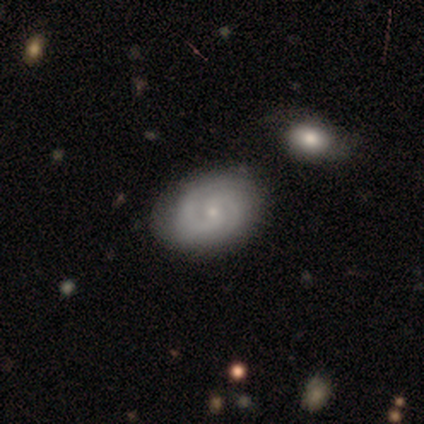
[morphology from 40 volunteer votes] This is clearly a featured or disk galaxy (80%). It is clearly not viewed edge-on (97%). Bar: possibly no (52%). Spiral arm pattern: clearly yes (94%). Spiral arm count: clearly 2 (93%). Spiral winding: likely tight (62%). Central bulge: clearly small (84%). Merging: possibly none (56%).